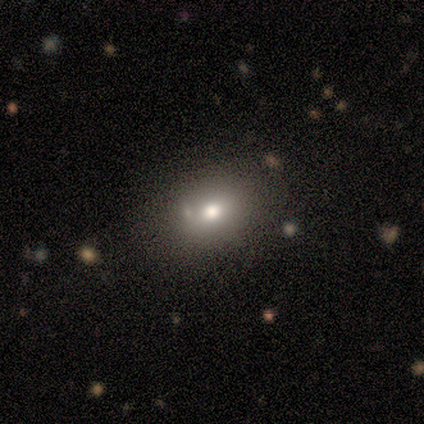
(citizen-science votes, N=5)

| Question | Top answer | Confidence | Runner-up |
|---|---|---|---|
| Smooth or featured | smooth | 80% | featured or disk (20%) |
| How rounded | in between | 75% | round (25%) |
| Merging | none | 60% | minor disturbance (20%) |